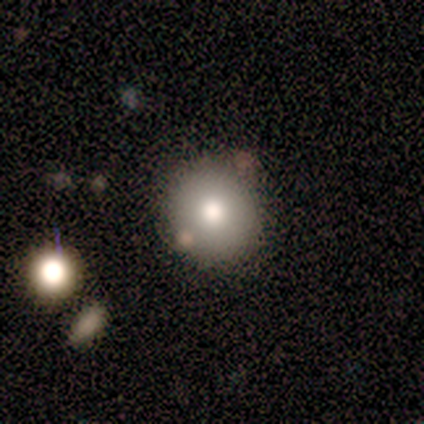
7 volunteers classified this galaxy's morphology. smooth 100%, featured or disk 0%, star or artifact 0%. Down the decision tree: how rounded — round (100%); merging — none (86%).